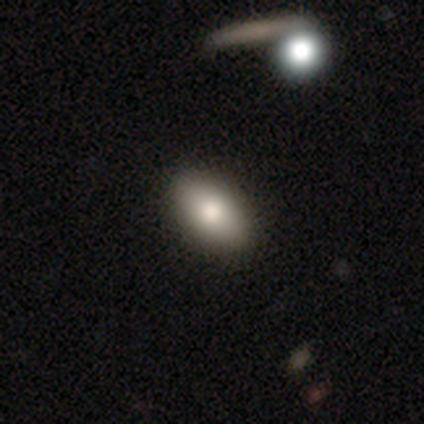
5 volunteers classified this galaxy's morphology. Smooth or featured? 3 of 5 (60%) said smooth. How rounded? 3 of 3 (100%) said in between. Merging? 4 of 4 (100%) said none.